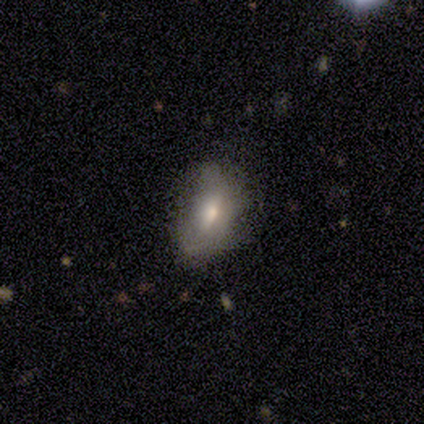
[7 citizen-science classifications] Overall: featured or disk (57%; smooth 43%). Edge-on disk: no (75%). Bar: no (67%; weak 33%). Spiral arms: no (100%). Bulge size: moderate (33%, tied with small and none). Merging: none (57%; minor disturbance 43%).